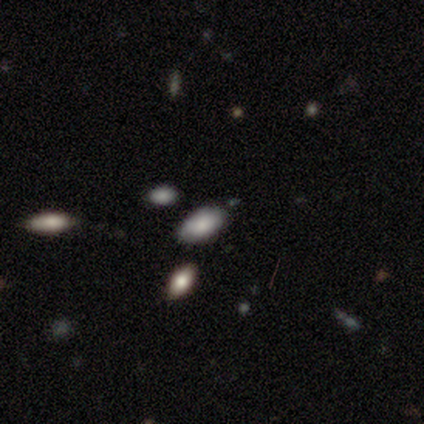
This is clearly a smooth galaxy (100%). How rounded: clearly in between (100%). Merging: clearly none (80%).